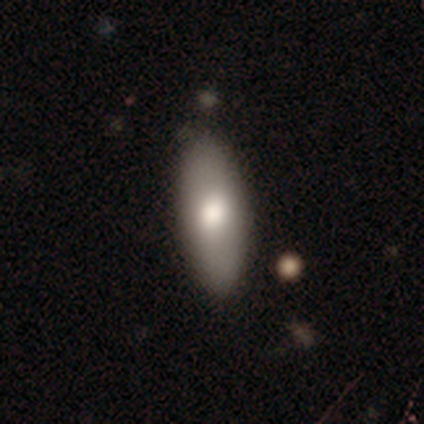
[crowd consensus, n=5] smooth-or-featured: smooth: 100% | featured or disk: 0% | star or artifact: 0%
  how-rounded: in between: 80% | cigar-shaped: 20% | round: 0%
  merging: none: 80% | major disturbance: 20% | minor disturbance: 0% | merger: 0%